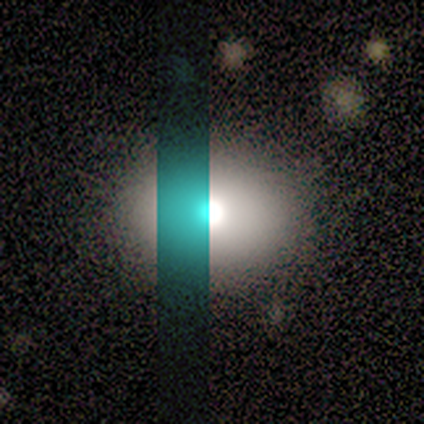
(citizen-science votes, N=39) smooth-or-featured: smooth: 67% | star or artifact: 23% | featured or disk: 10%
  how-rounded: round: 73% | in between: 27% | cigar-shaped: 0%
  merging: none: 83% | minor disturbance: 7% | merger: 7% | major disturbance: 3%